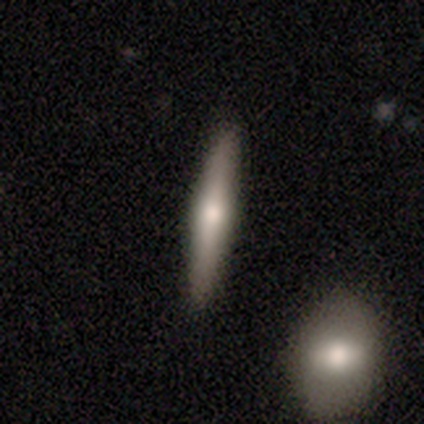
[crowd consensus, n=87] smooth_or_featured: featured or disk (p=0.49) [alt: smooth p=0.47]
disk_edge_on: yes (p=0.91) [alt: no p=0.09]
edge_on_bulge: rounded (p=0.97) [alt: none p=0.03]
merging: none (p=0.88) [alt: minor disturbance p=0.07]